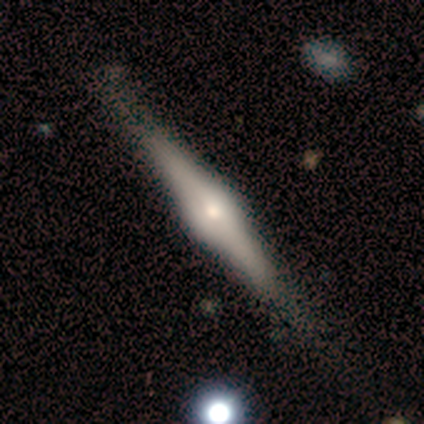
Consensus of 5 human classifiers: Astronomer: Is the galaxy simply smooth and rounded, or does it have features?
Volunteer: featured or disk — 80%.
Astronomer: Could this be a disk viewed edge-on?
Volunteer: yes — 100%.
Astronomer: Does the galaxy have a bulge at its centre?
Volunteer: rounded — 100%.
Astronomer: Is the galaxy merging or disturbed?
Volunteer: none — 60% (runner-up: minor disturbance, 40%).